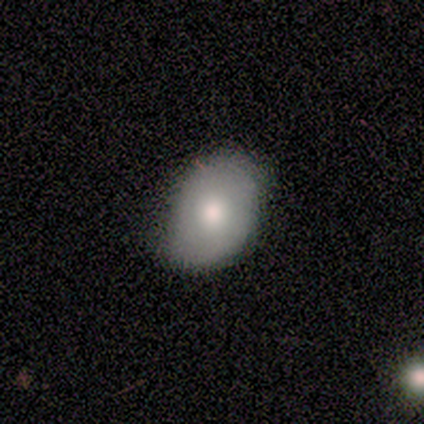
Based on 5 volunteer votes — Q: Smooth or featured?
A: smooth (100%)
Q: How rounded?
A: in between (80%); runner-up: round (20%)
Q: Merging?
A: none (80%); runner-up: minor disturbance (20%)